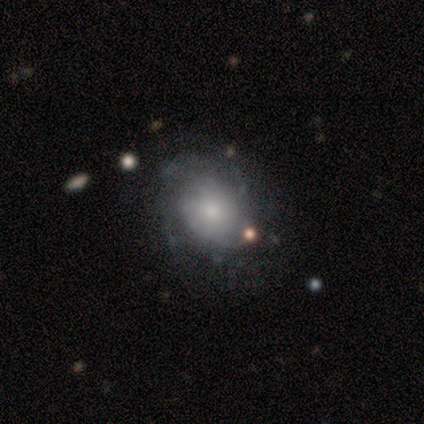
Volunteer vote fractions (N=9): Smooth or featured? 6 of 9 (67%) said smooth. How rounded? 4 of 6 (67%) said round. Merging? 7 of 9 (78%) said none.